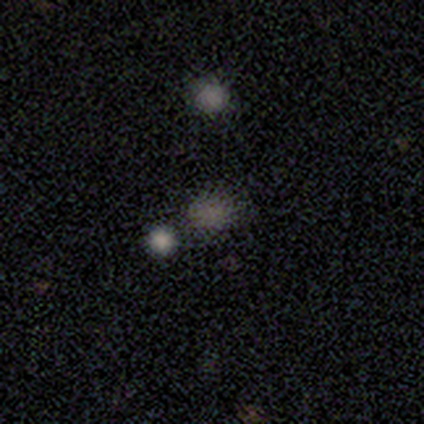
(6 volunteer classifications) smooth 100%, featured or disk 0%, star or artifact 0%. Down the decision tree: how rounded — round (50%, tied with in between); merging — none (100%).